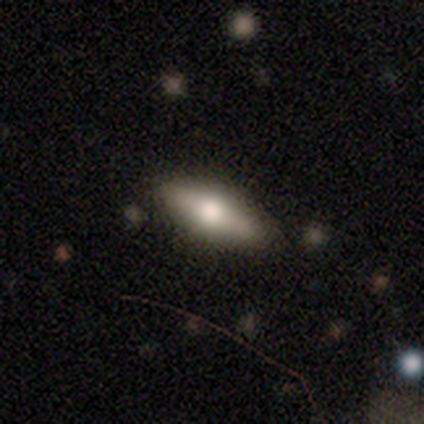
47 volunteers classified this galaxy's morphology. smooth-or-featured: smooth: 49% | featured or disk: 38% | star or artifact: 13%
  how-rounded: in between: 65% | cigar-shaped: 35% | round: 0%
  merging: none: 93% | major disturbance: 5% | minor disturbance: 2% | merger: 0%